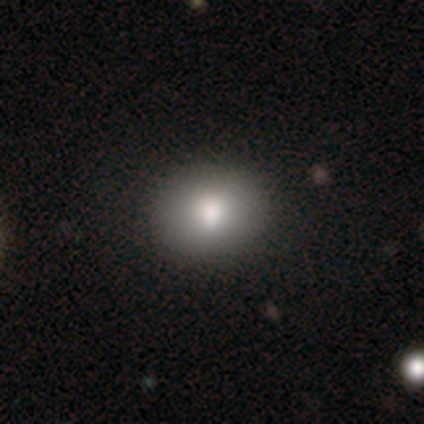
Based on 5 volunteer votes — Morphology: type=smooth (100%); roundness=in between (80%); merging=none (100%).